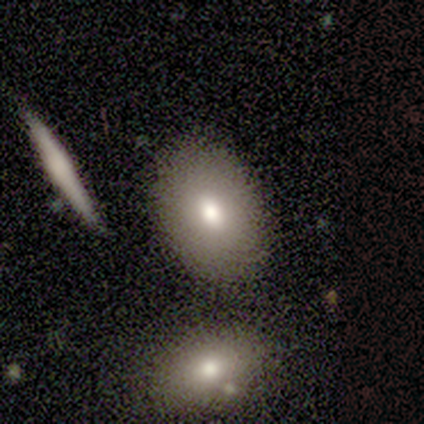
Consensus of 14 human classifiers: smooth-or-featured: smooth: 93% | featured or disk: 7% | star or artifact: 0%
  how-rounded: in between: 85% | round: 8% | cigar-shaped: 8%
  merging: none: 93% | merger: 7% | minor disturbance: 0% | major disturbance: 0%